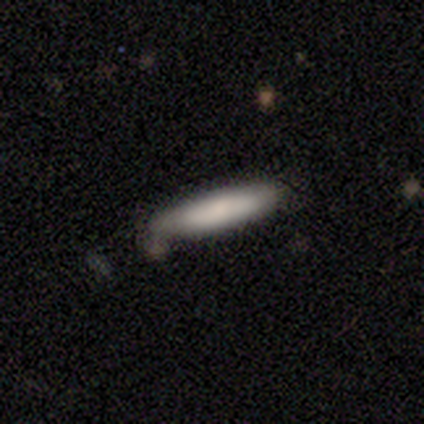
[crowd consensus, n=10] Smooth or featured: smooth — 70% (star or artifact — 20%)
How rounded: cigar-shaped — 86% (in between — 14%)
Merging: none — 62% (minor disturbance — 25%)